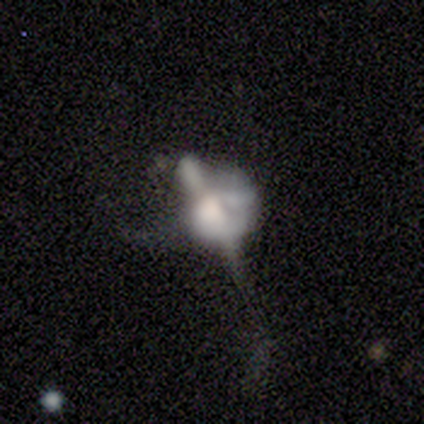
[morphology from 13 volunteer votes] A featured or disk galaxy (62%) with no bar (86%), no spiral arms (100%) and a large central bulge (43%). Merging: merger (55%).